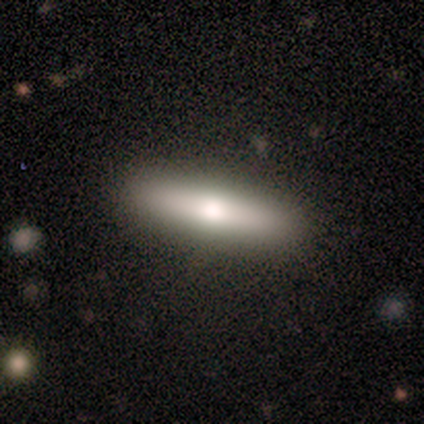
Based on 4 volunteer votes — Q: Smooth or featured?
A: smooth (100%)
Q: How rounded?
A: cigar-shaped (75%); runner-up: in between (25%)
Q: Merging?
A: none (75%); runner-up: major disturbance (25%)